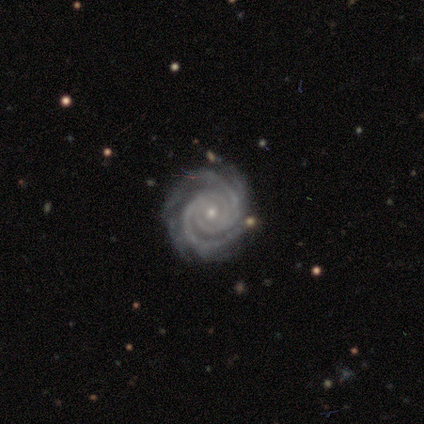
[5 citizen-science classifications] Overall: featured or disk (80%). Edge-on disk: no (100%). Bar: no (100%). Spiral arms: yes (100%). Spiral arm count: 3 (50%; 2 25%). Spiral winding: tight (100%). Bulge size: small (75%). Merging: none (100%).